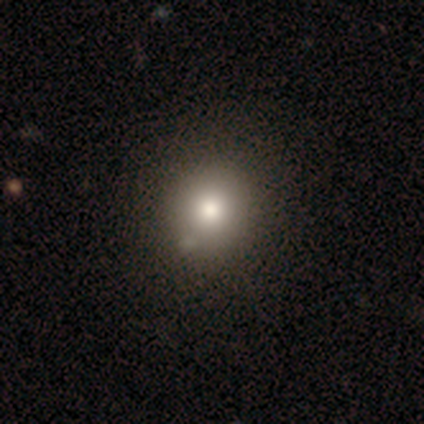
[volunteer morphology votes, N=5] This is clearly a smooth galaxy (80%). How rounded: clearly round (100%). Merging: clearly none (100%).